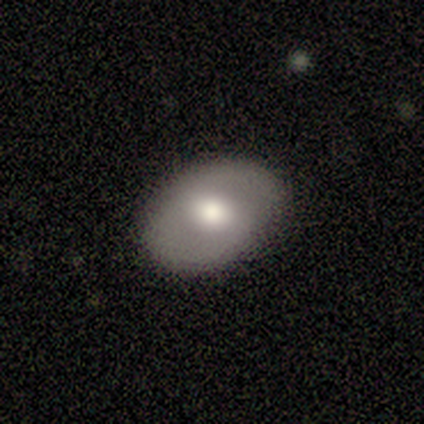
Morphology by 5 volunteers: Volunteers were most divided on "bar": no: 75%, weak: 25%, strong: 0%. More confident: smooth or featured — featured or disk (100%); spiral arms — no (100%); bulge size — moderate (100%); merging — none (100%); edge-on disk — no (80%).